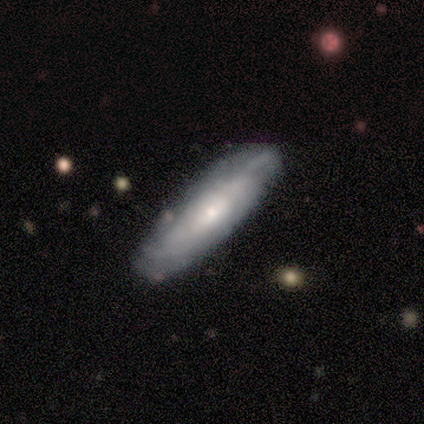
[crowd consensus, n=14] A featured or disk galaxy (71%) viewed edge-on (50%, tied with no) with a rounded central bulge (60%). Merging: none (79%).